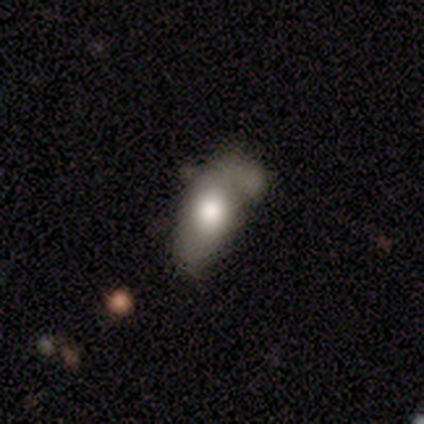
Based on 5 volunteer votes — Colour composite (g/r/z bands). It shows a featured or disk galaxy (60%) with no bar (100%), 2 (100%) medium (100%) spiral arms (100%) and a large central bulge (50%, tied with moderate). Merging: minor disturbance (60%).